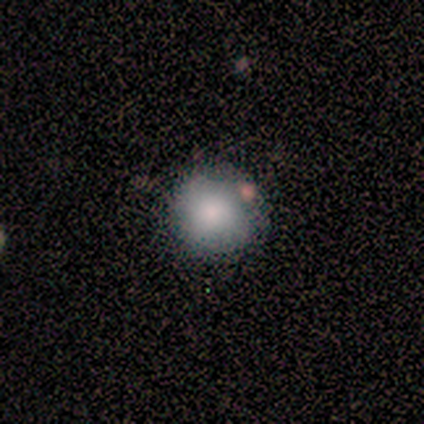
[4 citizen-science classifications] A smooth galaxy with no disk features (75%) that is round (100%). Merging: none (100%).